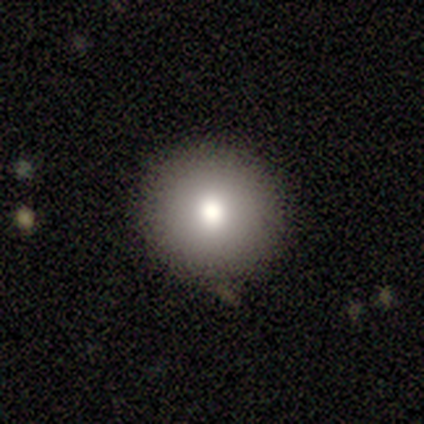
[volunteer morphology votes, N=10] smooth_or_featured: smooth (p=0.60) [alt: featured or disk p=0.20]
how_rounded: round (p=1.00)
merging: none (p=0.88) [alt: minor disturbance p=0.12]